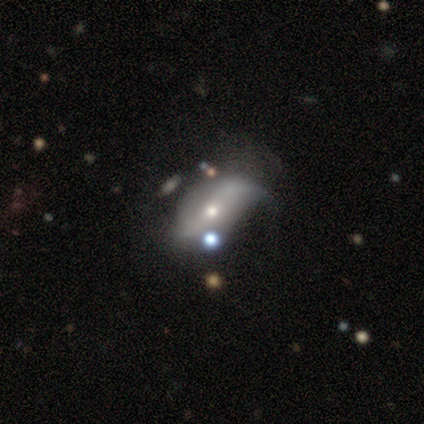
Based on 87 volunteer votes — Smooth or featured? featured or disk (68%)
Edge-on disk? no (88%)
Bar? no (52%)
Spiral arms? yes (67%)
Spiral winding? loose (80%)
Spiral arm count? 2 (71%)
Bulge size? small (54%)
Merging? major disturbance (35%)